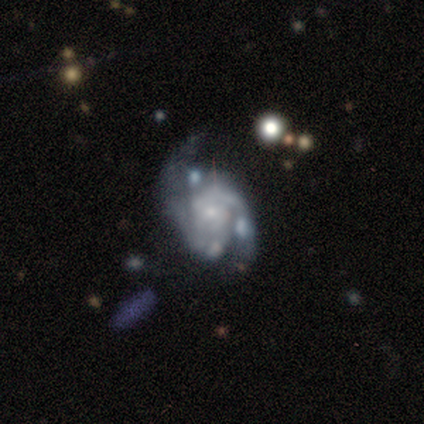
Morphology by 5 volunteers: A featured or disk galaxy (60%) with no bar (100%), 2 (100%) medium (67%) spiral arms (100%) and a moderate central bulge (67%).

Vote fractions:
- Smooth or featured? featured or disk: 60% / smooth: 40% / star or artifact: 0%
- Edge-on disk? no: 100% / yes: 0%
- Bar? no: 100% / strong: 0% / weak: 0%
- Spiral arms? yes: 100% / no: 0%
- Spiral winding? medium: 67% / tight: 33% / loose: 0%
- Spiral arm count? 2: 100% / 1: 0% / 3: 0% / 4: 0% / more than 4: 0% / can't tell: 0%
- Bulge size? moderate: 67% / small: 33% / dominant: 0% / large: 0% / none: 0%
- Merging? none: 40% (tied) / minor disturbance: 40% (tied) / merger: 20% / major disturbance: 0%